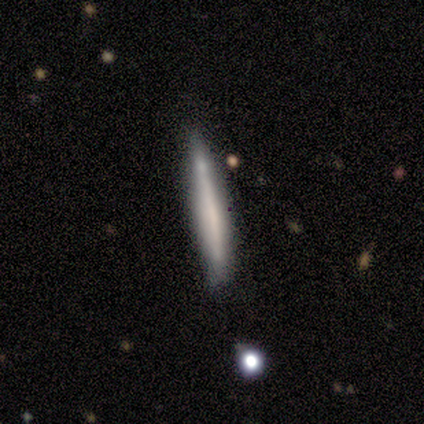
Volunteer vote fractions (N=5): smooth-or-featured: smooth: 80% | featured or disk: 20% | star or artifact: 0%
  how-rounded: cigar-shaped: 100% | round: 0% | in between: 0%
  merging: none: 60% | minor disturbance: 40% | major disturbance: 0% | merger: 0%